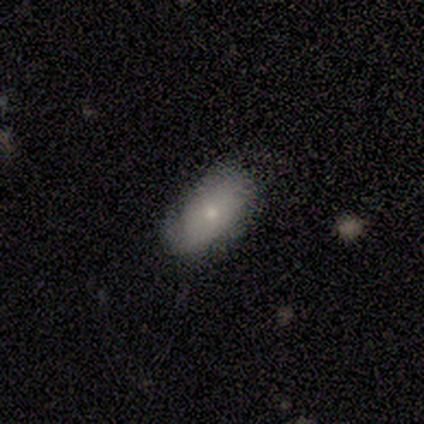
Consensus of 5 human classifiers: A smooth galaxy with no disk features (60%) that is in between round and cigar-shaped (100%). Merging: none (100%).